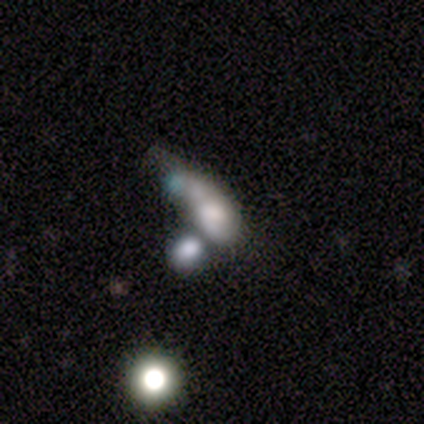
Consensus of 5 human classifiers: smooth 60%, star or artifact 40%, featured or disk 0%. Down the decision tree: how rounded — round (33%, tied with in between and cigar-shaped); merging — merger (67%).